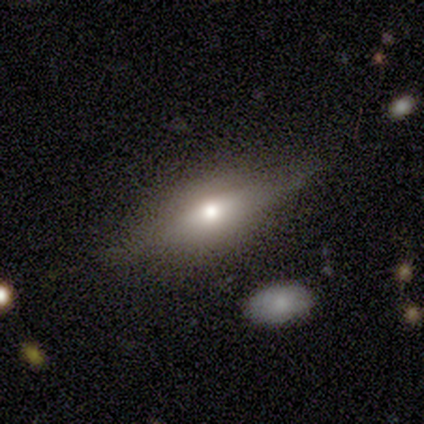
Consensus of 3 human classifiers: Smooth or featured? 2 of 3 (67%) said featured or disk. Edge-on disk? 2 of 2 (100%) said yes. Edge-on bulge? 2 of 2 (100%) said rounded. Merging? 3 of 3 (100%) said none.